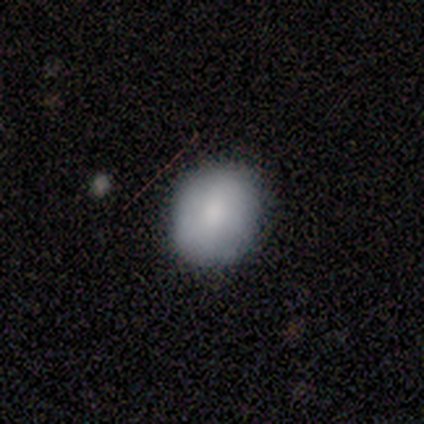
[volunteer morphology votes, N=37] Volunteers were most divided on "merging": none: 76%, minor disturbance: 21%, merger: 3%, major disturbance: 0%. More confident: how rounded — round (79%); smooth or featured — smooth (78%).